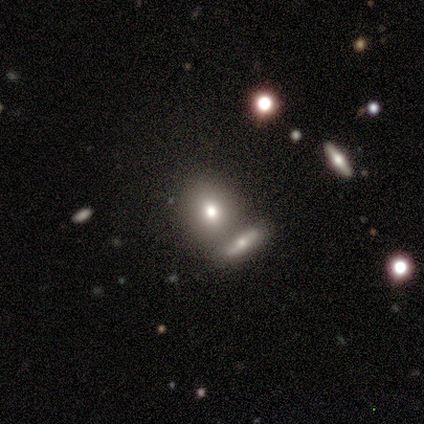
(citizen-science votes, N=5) This is clearly a smooth galaxy (80%). How rounded: clearly round (100%). Merging: clearly none (80%).